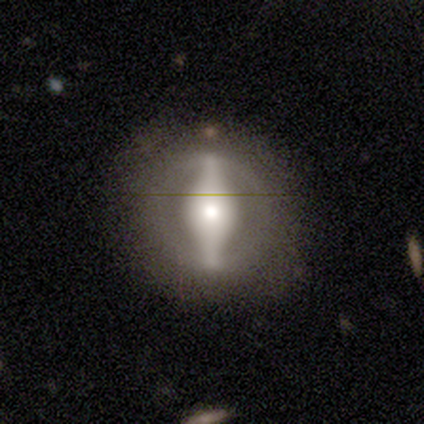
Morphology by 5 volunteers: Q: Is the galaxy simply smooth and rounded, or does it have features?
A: featured or disk — 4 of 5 (80%).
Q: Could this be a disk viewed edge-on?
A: no — 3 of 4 (75%).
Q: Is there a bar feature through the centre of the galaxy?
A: strong — 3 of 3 (100%).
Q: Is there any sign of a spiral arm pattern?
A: no — 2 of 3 (67%).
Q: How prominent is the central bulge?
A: moderate — 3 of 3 (100%).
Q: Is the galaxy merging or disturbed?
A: none — 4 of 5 (80%).